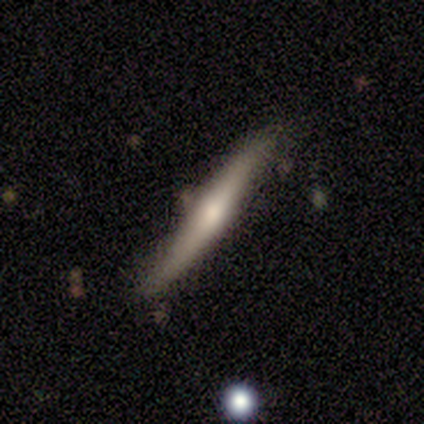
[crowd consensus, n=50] Overall: featured or disk (52%; smooth 42%). Edge-on disk: yes (92%). Edge-on bulge: rounded (71%). Merging: none (70%).